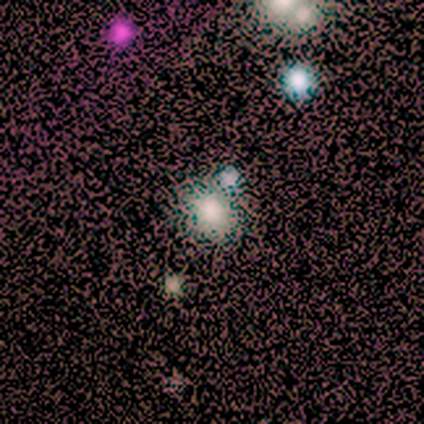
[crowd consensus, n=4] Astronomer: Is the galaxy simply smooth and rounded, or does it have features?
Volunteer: smooth — 50%, tied with star or artifact at 50%.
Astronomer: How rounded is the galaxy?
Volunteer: round — 100%.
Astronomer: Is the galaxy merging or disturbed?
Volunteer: none — 100%.